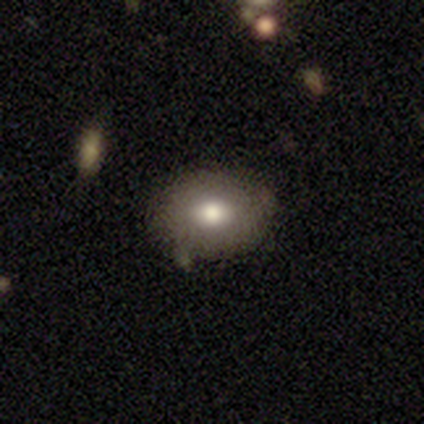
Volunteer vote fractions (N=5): Q: Smooth or featured?
A: smooth (80%); runner-up: featured or disk (20%)
Q: How rounded?
A: in between (75%); runner-up: round (25%)
Q: Merging?
A: none (100%)